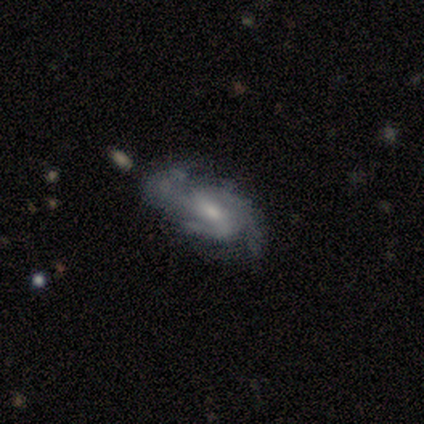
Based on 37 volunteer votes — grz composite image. It shows a featured or disk galaxy (78%) with a weak bar (46%), 3 (52%) medium (43%) spiral arms (88%) and a moderate central bulge (58%). Merging: none (46%).